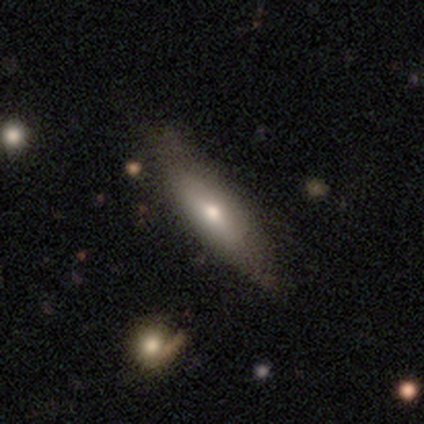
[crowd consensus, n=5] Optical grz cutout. It shows a featured or disk galaxy (60%) viewed edge-on (67%) with a rounded central bulge (100%). Merging: none (60%).